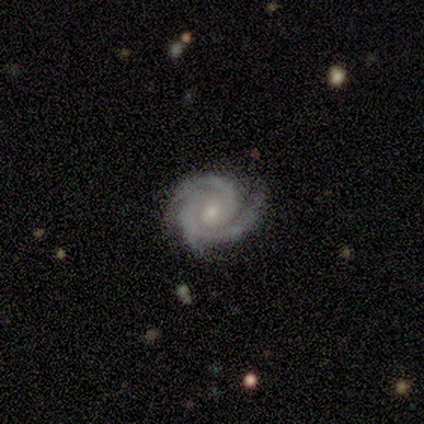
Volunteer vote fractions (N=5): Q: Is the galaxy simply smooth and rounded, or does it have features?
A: featured or disk — 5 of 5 (100%).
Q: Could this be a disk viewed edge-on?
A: no — 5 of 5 (100%).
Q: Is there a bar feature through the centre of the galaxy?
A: no — 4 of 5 (80%).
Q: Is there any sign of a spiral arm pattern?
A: yes — 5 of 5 (100%).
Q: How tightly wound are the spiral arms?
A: tight — 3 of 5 (60%).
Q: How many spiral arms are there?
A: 2 — 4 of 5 (80%).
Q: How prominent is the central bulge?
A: small — 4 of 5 (80%).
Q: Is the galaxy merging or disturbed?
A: none — 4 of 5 (80%).